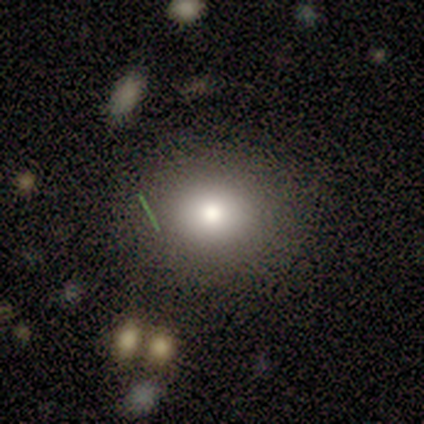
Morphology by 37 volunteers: This is likely a smooth galaxy (70%). How rounded: clearly round (81%). Merging: clearly none (83%).